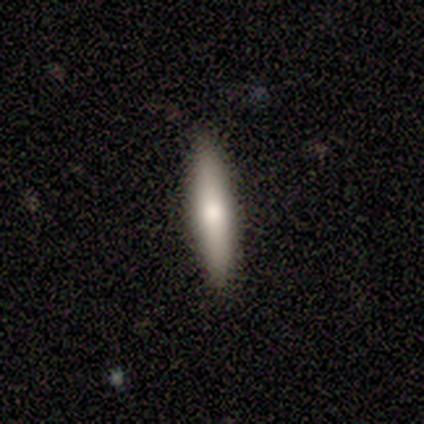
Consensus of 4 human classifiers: Morphology: type=featured or disk (75%); edge-on=yes (67%); edge-on bulge=rounded (100%); merging=none (100%).